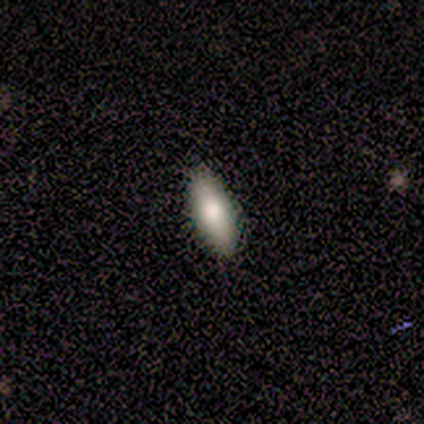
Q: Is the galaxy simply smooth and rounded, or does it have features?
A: smooth — 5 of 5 (100%).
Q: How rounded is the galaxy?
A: in between — 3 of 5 (60%).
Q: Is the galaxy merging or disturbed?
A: none — 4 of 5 (80%).